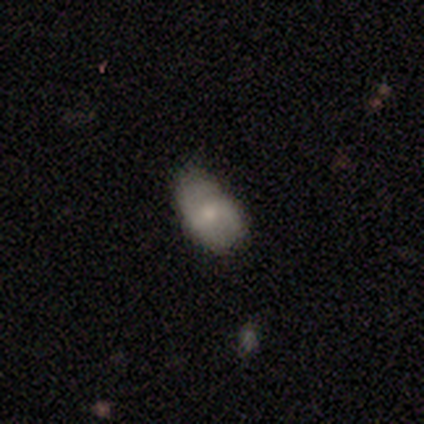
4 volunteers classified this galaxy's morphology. Smooth or featured: featured or disk — 75% (smooth — 25%)
Edge-on disk: no — 100%
Bar: weak — 67% (no — 33%)
Spiral arms: no — 100%
Bulge size: small — 100%
Merging: none — 75% (minor disturbance — 25%)